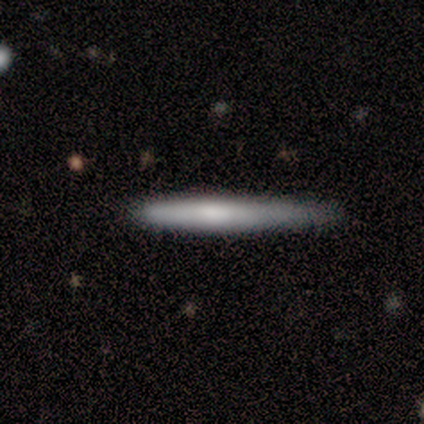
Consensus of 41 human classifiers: smooth 63%, featured or disk 32%, star or artifact 5%. Down the decision tree: how rounded — cigar-shaped (96%); merging — none (67%).